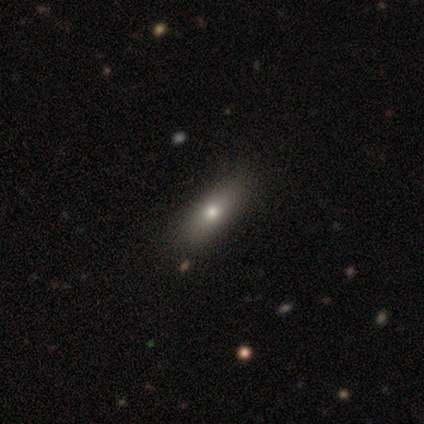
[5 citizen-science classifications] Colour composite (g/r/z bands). It shows a smooth galaxy with no disk features (100%) that is in between round and cigar-shaped (60%). Merging: none (80%).